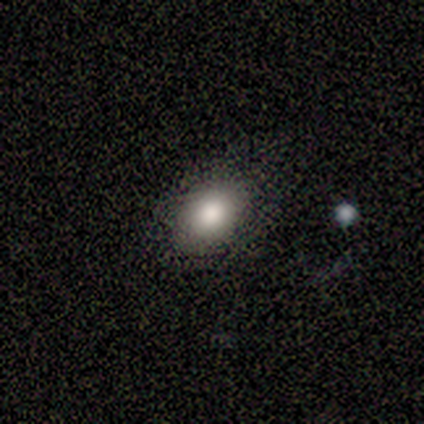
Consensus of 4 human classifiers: This is clearly a smooth galaxy (100%). How rounded: clearly in between (100%). Merging: likely none (75%).